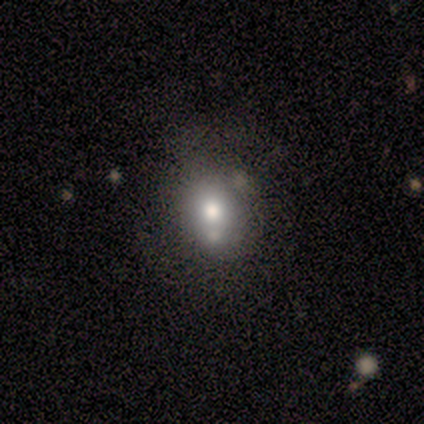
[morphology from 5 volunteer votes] This appears to be a smooth galaxy with no disk features (60%) that is round (67%). Merging: merger (50%).